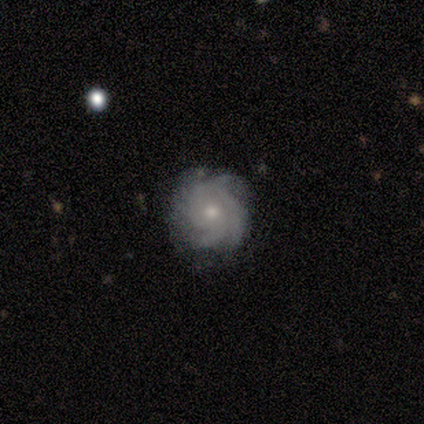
A featured or disk galaxy (92%) with no bar (89%), 4 (41%) tight (74%) spiral arms (94%) and a small central bulge (53%). Merging: none (79%).